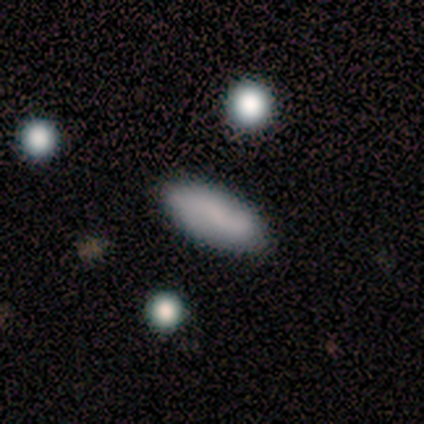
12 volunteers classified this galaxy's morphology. Smooth or featured?
  - smooth: 83% *
  - featured or disk: 17%
  - star or artifact: 0%
How rounded?
  - in between: 90% *
  - cigar-shaped: 10%
  - round: 0%
Merging?
  - none: 83% *
  - minor disturbance: 17%
  - major disturbance: 0%
  - merger: 0%